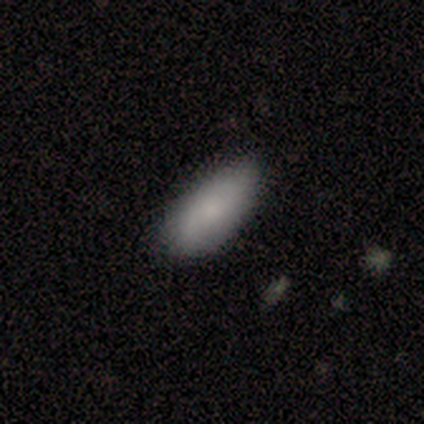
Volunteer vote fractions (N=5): Overall: smooth (80%). How rounded: in between (100%). Merging: none (80%).